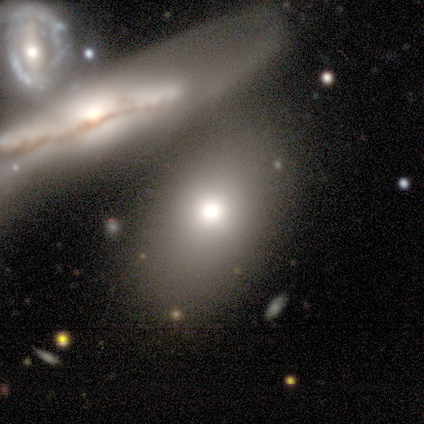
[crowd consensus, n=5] Q: Smooth or featured?
A: smooth (60%); runner-up: featured or disk (20%)
Q: How rounded?
A: in between (100%)
Q: Merging?
A: none (75%); runner-up: major disturbance (25%)